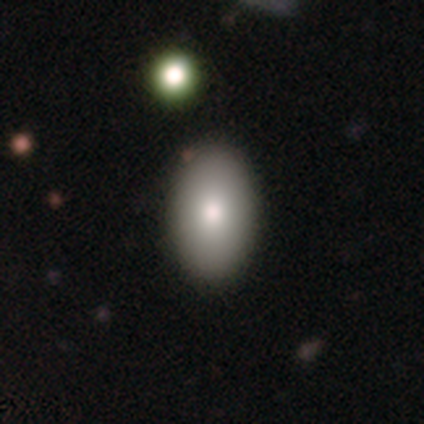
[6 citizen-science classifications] Smooth or featured: smooth — 100%
How rounded: in between — 83% (round — 17%)
Merging: none — 83% (merger — 17%)